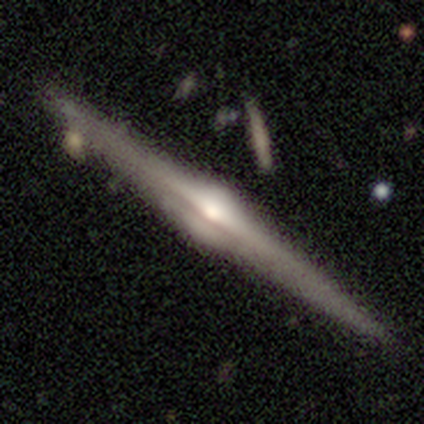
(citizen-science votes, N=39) smooth_or_featured: featured or disk (p=0.79) [alt: smooth p=0.18]
disk_edge_on: yes (p=0.94) [alt: no p=0.06]
edge_on_bulge: rounded (p=0.97) [alt: none p=0.03]
merging: none (p=0.79) [alt: merger p=0.13]